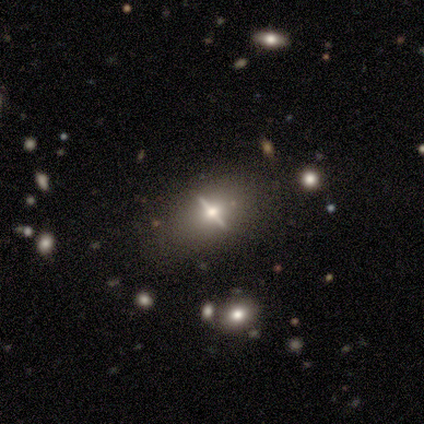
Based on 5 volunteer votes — This appears to be a featured or disk galaxy (80%) with a strong bar (67%), no spiral arms (100%) and a moderate central bulge (100%). Merging: none (80%).